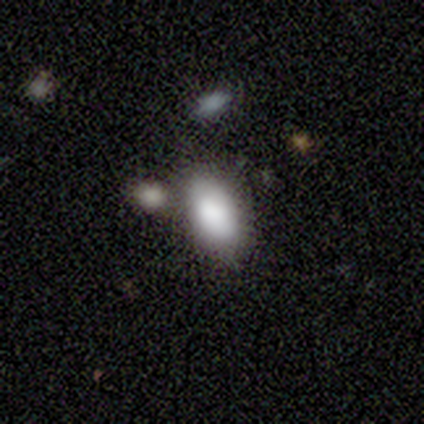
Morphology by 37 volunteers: Smooth or featured: smooth — 76% (star or artifact — 16%)
How rounded: in between — 96% (round — 4%)
Merging: none — 55% (minor disturbance — 29%)